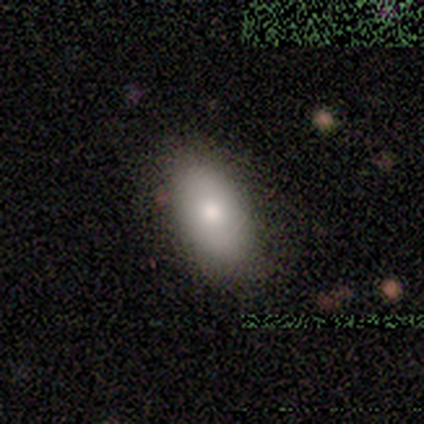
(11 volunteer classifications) This is clearly a smooth galaxy (91%). How rounded: clearly in between (100%). Merging: likely none (73%).